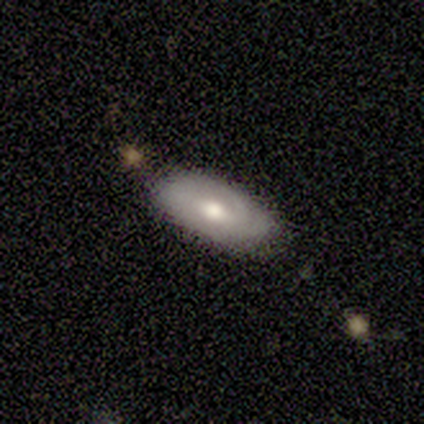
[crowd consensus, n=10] smooth_or_featured: featured or disk (p=0.50) [alt: smooth p=0.30]
disk_edge_on: no (p=0.80) [alt: yes p=0.20]
bar: weak (p=0.50) [tied with: no p=0.50]
has_spiral_arms: yes (p=0.50) [tied with: no p=0.50]
spiral_winding: tight (p=1.00)
spiral_arm_count: 1 (p=0.50) [tied with: 3 p=0.50]
bulge_size: moderate (p=0.75) [alt: small p=0.25]
merging: none (p=1.00)